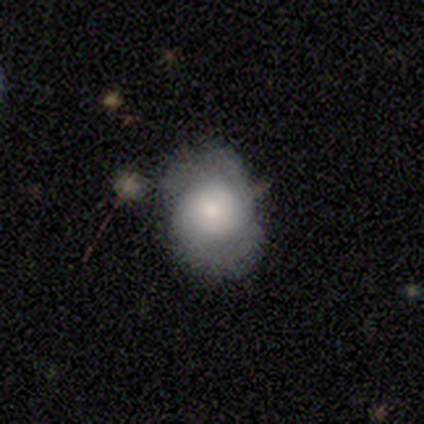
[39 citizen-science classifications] Smooth or featured? smooth (54%)
How rounded? round (57%)
Merging? none (54%)